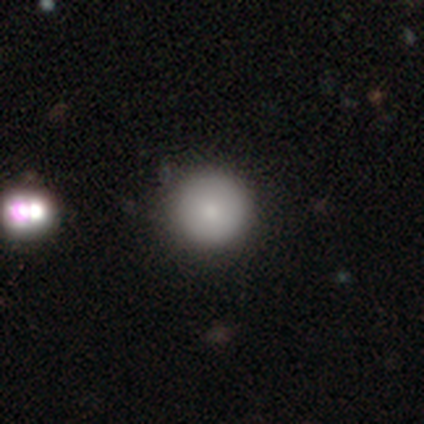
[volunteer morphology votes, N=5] Smooth or featured: smooth — 80% (featured or disk — 20%)
How rounded: round — 75% (in between — 25%)
Merging: none — 60% (minor disturbance — 20%)